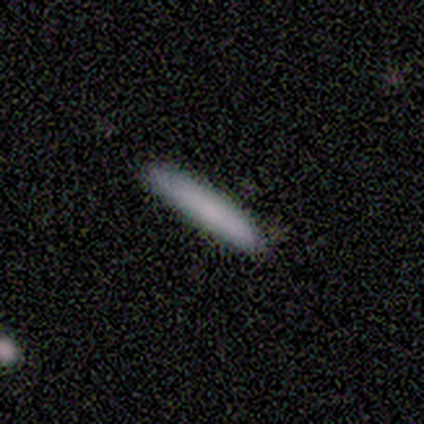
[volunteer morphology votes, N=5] Smooth or featured? smooth (100%)
How rounded? cigar-shaped (100%)
Merging? none (100%)